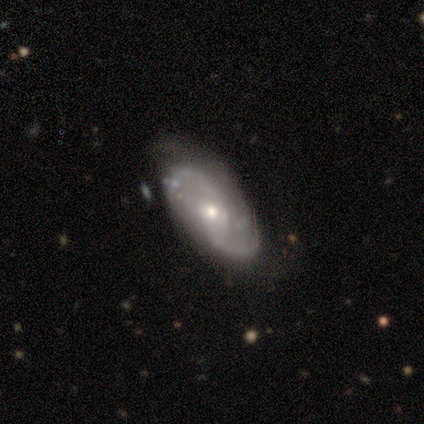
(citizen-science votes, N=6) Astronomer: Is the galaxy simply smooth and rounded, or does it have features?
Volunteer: featured or disk — 100%.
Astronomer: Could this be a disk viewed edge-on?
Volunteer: no — 83%.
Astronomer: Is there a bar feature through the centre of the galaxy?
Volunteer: no — 80%.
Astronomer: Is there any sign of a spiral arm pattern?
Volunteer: yes — 100%.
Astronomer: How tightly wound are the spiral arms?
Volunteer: loose — 60% (runner-up: medium, 40%).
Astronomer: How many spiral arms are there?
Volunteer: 2 — 100%.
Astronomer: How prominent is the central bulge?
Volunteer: moderate — 60% (runner-up: small, 40%).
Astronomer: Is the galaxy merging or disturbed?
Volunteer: none — 83%.